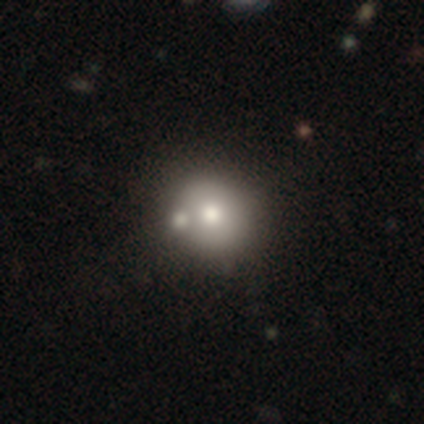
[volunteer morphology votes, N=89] Q: Smooth or featured?
A: smooth (69%); runner-up: featured or disk (18%)
Q: How rounded?
A: round (84%); runner-up: in between (16%)
Q: Merging?
A: none (65%); runner-up: merger (23%)